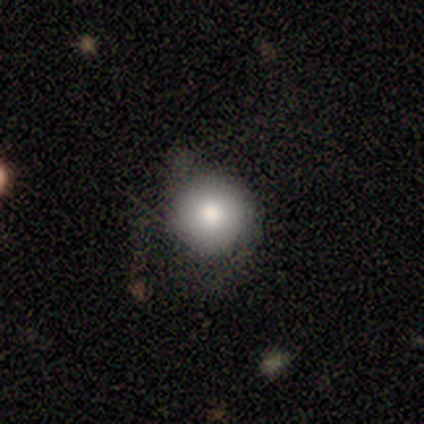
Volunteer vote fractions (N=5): Overall: smooth (80%). How rounded: round (100%). Merging: none (100%).